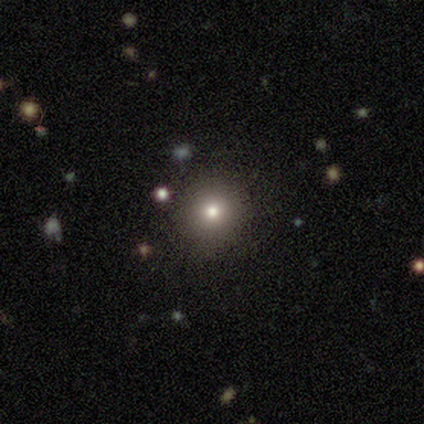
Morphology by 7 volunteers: smooth 100%, featured or disk 0%, star or artifact 0%. Down the decision tree: how rounded — round (86%); merging — none (100%).